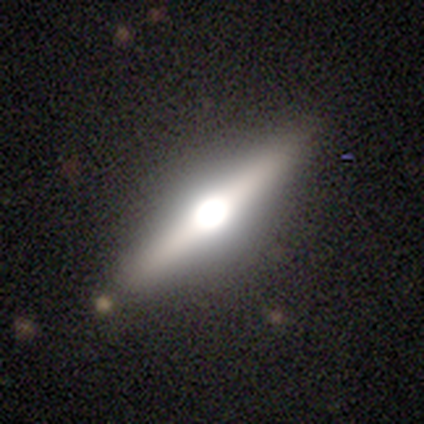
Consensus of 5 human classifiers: featured or disk 60%, smooth 20%, star or artifact 20%. Down the decision tree: edge-on disk — yes (100%); edge-on bulge — rounded (100%); merging — none (75%).